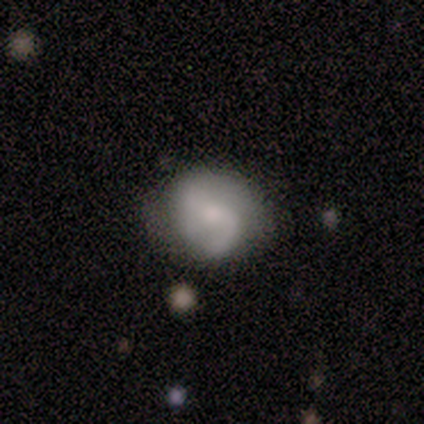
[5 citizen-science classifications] Smooth or featured?
  - featured or disk: 60% *
  - smooth: 40%
  - star or artifact: 0%
Edge-on disk?
  - no: 100% *
  - yes: 0%
Bar?
  - no: 100% *
  - strong: 0%
  - weak: 0%
Spiral arms?
  - yes: 100% *
  - no: 0%
Spiral winding?
  - loose: 67% *
  - tight: 33%
  - medium: 0%
Spiral arm count?
  - 1: 33% * (tied)
  - 2: 33% * (tied)
  - can't tell: 33% * (tied)
  - 3: 0%
  - 4: 0%
  - more than 4: 0%
Bulge size?
  - small: 100% *
  - dominant: 0%
  - large: 0%
  - moderate: 0%
  - none: 0%
Merging?
  - none: 60% *
  - minor disturbance: 20%
  - major disturbance: 20%
  - merger: 0%